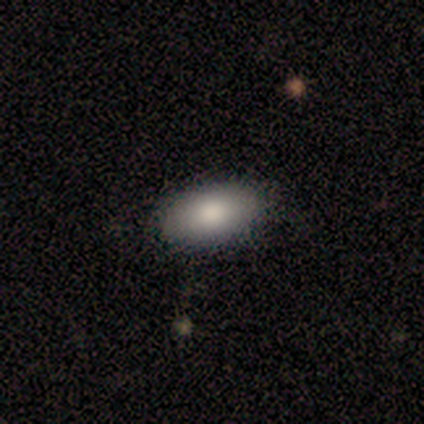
Smooth or featured? smooth (100%)
How rounded? in between (80%)
Merging? none (100%)